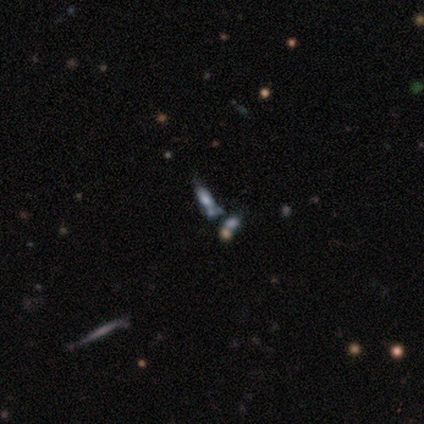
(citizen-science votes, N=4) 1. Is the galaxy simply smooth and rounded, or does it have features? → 50% star or artifact, 25% smooth, 25% featured or disk.